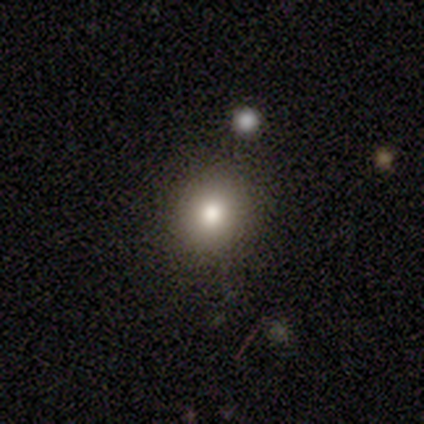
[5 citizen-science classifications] This appears to be a smooth galaxy with no disk features (100%) that is round (100%). Merging: none (60%).